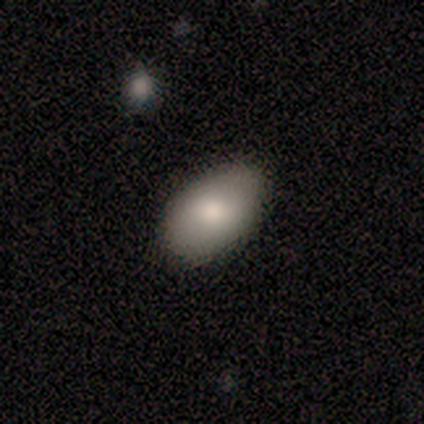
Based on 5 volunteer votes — This appears to be a smooth galaxy with no disk features (60%) that is in between round and cigar-shaped (100%). Merging: none (100%).